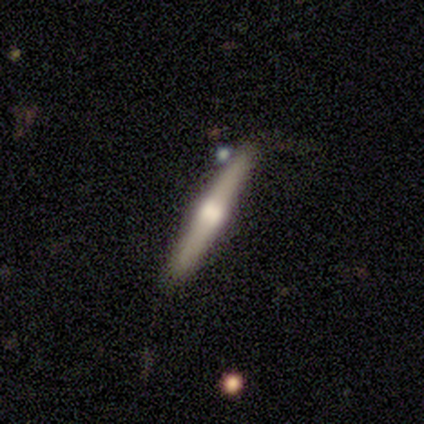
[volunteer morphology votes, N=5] Overall: featured or disk (60%; smooth 20%). Edge-on disk: yes (100%). Edge-on bulge: rounded (100%). Merging: none (100%).